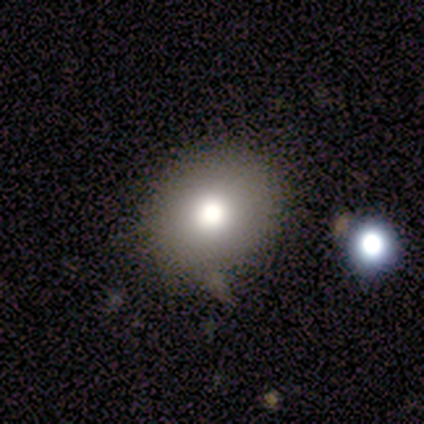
Morphology: type=smooth (86%); roundness=round (67%); merging=none (71%).